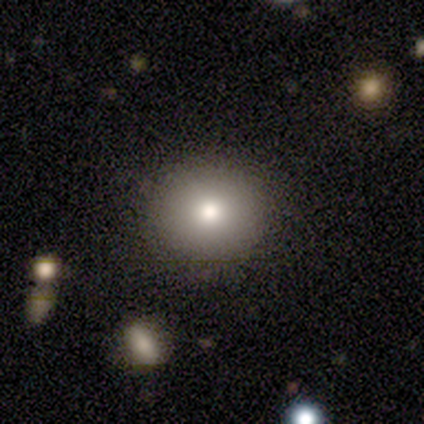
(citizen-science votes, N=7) This appears to be a featured or disk galaxy (71%) with no bar (100%), no spiral arms (100%) and a moderate central bulge (80%). Merging: none (100%).